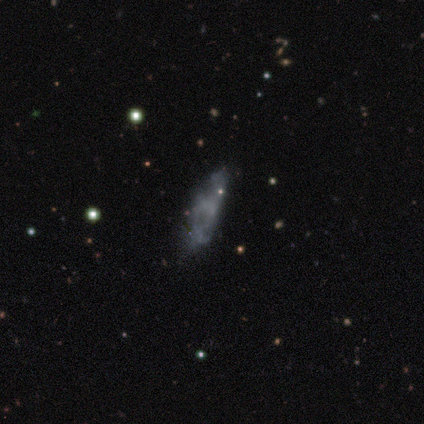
Morphology: type=featured or disk (75%); edge-on=no (100%); bar=no (100%); spiral arms=no (100%); bulge=none (100%); merging=major disturbance (75%).